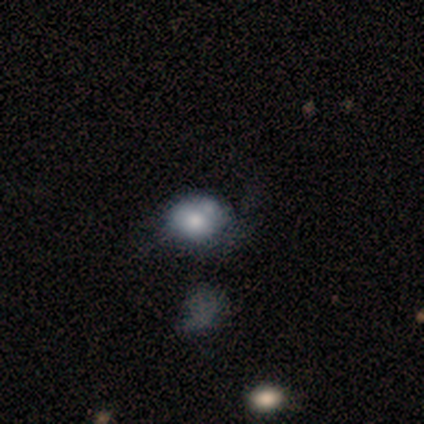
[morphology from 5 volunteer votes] Smooth or featured?
  - smooth: 60% *
  - featured or disk: 40%
  - star or artifact: 0%
How rounded?
  - round: 67% *
  - in between: 33%
  - cigar-shaped: 0%
Merging?
  - major disturbance: 40% *
  - none: 20%
  - minor disturbance: 20%
  - merger: 20%